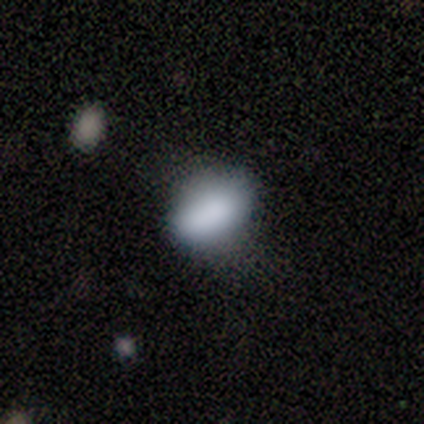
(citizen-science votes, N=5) This appears to be a smooth galaxy with no disk features (100%) that is in between round and cigar-shaped (100%). Merging: none (40%, tied with major disturbance).